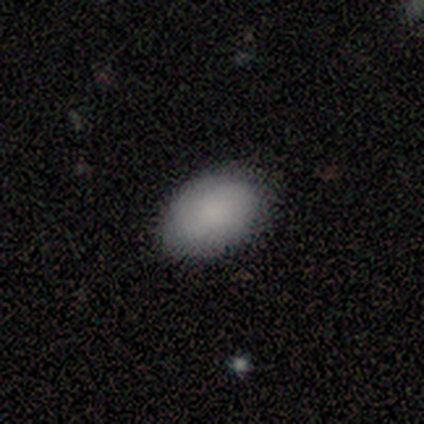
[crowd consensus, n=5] smooth 100%, featured or disk 0%, star or artifact 0%. Down the decision tree: how rounded — in between (80%); merging — none (100%).